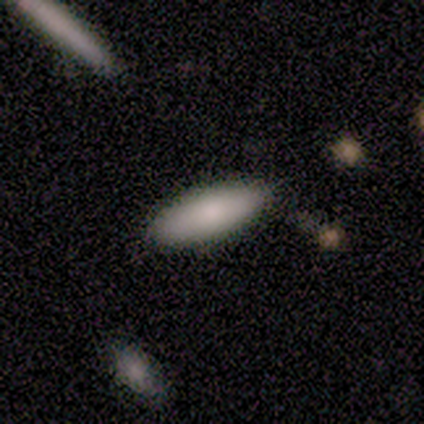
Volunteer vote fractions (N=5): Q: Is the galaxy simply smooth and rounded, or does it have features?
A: smooth — 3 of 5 (60%).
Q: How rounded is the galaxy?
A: cigar-shaped — 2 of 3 (67%).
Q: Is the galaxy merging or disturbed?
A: none — 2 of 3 (67%).